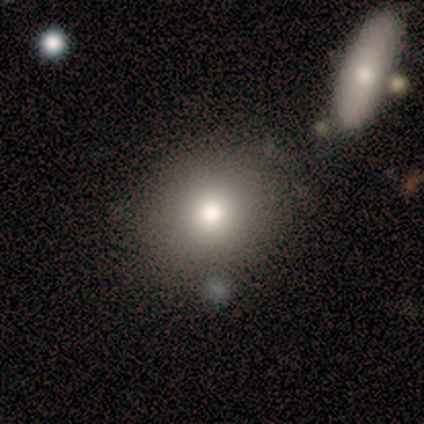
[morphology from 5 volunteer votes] This is clearly a smooth galaxy (80%). How rounded: likely round (75%). Merging: likely none (75%).